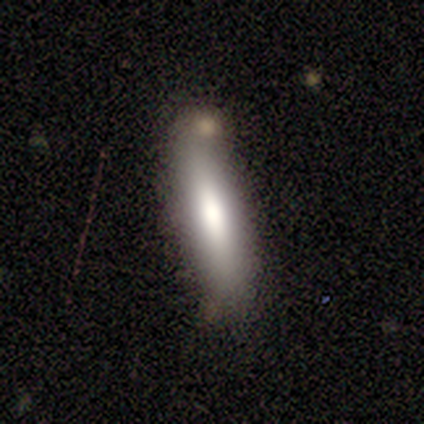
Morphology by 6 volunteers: Smooth or featured? 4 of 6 (67%) said smooth. How rounded? 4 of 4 (100%) said cigar-shaped. Merging? 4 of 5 (80%) said none.